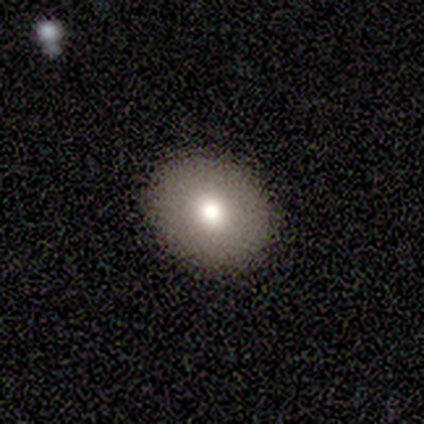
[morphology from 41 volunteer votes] This is likely a smooth galaxy (66%). How rounded: possibly in between (59%). Merging: clearly none (89%).